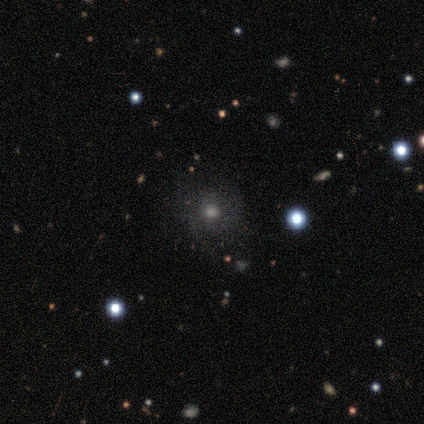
smooth_or_featured: smooth (p=0.48) [alt: featured or disk p=0.34]
how_rounded: round (p=0.76) [alt: in between p=0.19]
merging: none (p=0.67) [alt: minor disturbance p=0.17]